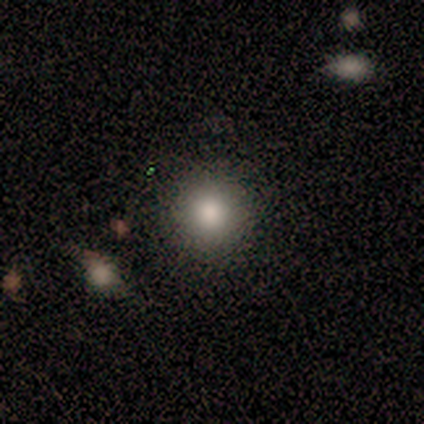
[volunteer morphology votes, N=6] Volunteers were most divided on "merging": none: 83%, minor disturbance: 17%, major disturbance: 0%, merger: 0%. More confident: smooth or featured — smooth (100%); how rounded — round (100%).